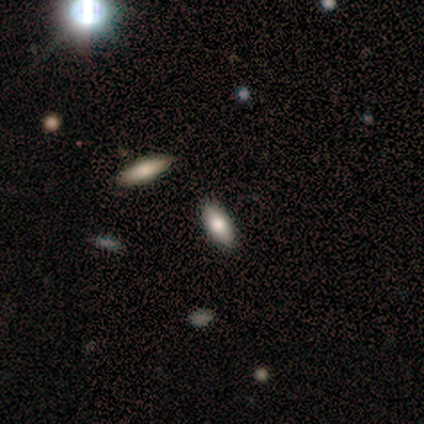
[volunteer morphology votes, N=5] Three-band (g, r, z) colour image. It shows a smooth galaxy with no disk features (60%) that is cigar-shaped (67%). Merging: none (100%).